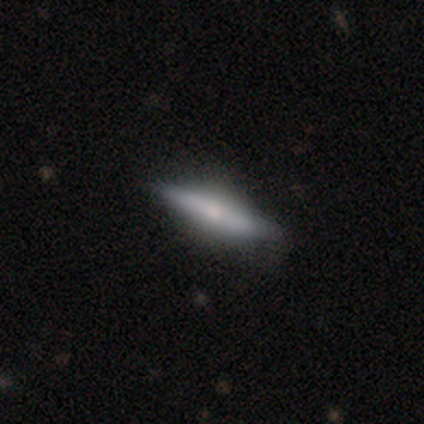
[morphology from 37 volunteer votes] Overall: featured or disk (57%; smooth 41%). Edge-on disk: yes (90%). Edge-on bulge: rounded (63%). Merging: none (67%; minor disturbance 28%).